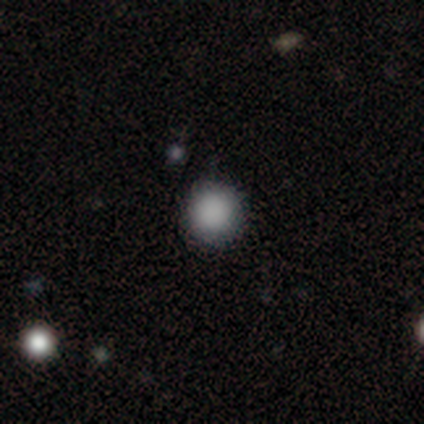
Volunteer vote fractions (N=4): A smooth galaxy with no disk features (75%) that is round (100%). Merging: none (75%).